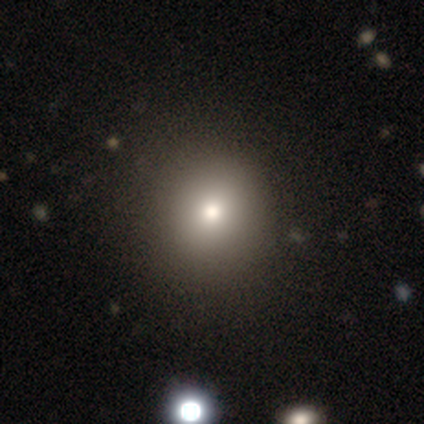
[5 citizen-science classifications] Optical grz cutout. It shows a smooth galaxy with no disk features (60%) that is round (100%). Merging: none (100%).